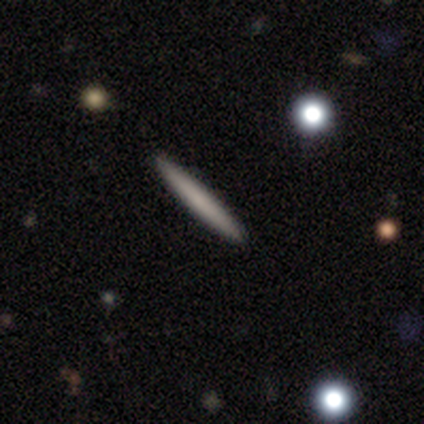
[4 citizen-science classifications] A smooth galaxy with no disk features (100%) that is cigar-shaped (100%).

Vote fractions:
- Smooth or featured? smooth: 100% / featured or disk: 0% / star or artifact: 0%
- How rounded? cigar-shaped: 100% / round: 0% / in between: 0%
- Merging? none: 100% / minor disturbance: 0% / major disturbance: 0% / merger: 0%